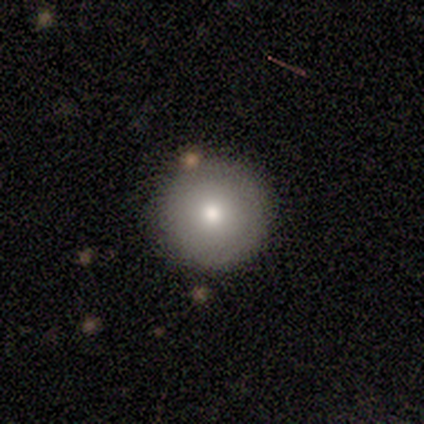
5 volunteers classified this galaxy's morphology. smooth_or_featured: smooth (p=0.80) [alt: star or artifact p=0.20]
how_rounded: round (p=1.00)
merging: none (p=1.00)